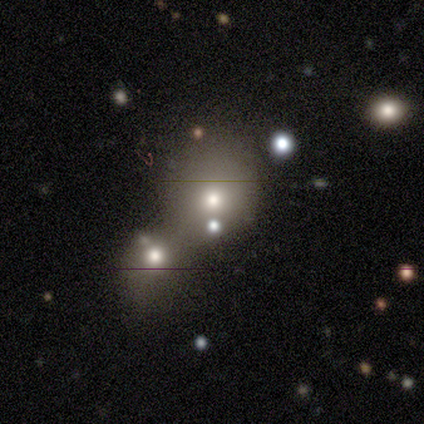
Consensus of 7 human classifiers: This appears to be a smooth galaxy with no disk features (71%) that is round (100%). Merging: none (50%, tied with merger).